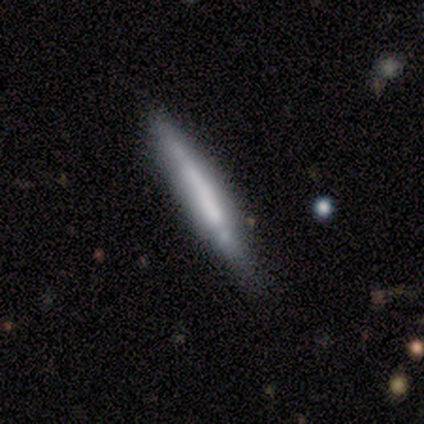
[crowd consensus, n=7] smooth_or_featured: smooth (p=0.57) [alt: featured or disk p=0.43]
how_rounded: cigar-shaped (p=1.00)
merging: none (p=1.00)